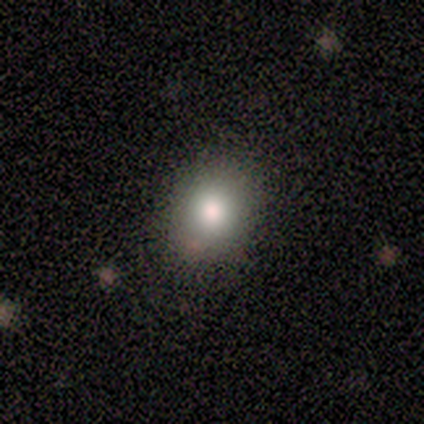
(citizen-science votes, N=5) smooth_or_featured: smooth (p=0.60) [alt: star or artifact p=0.40]
how_rounded: in between (p=1.00)
merging: none (p=1.00)